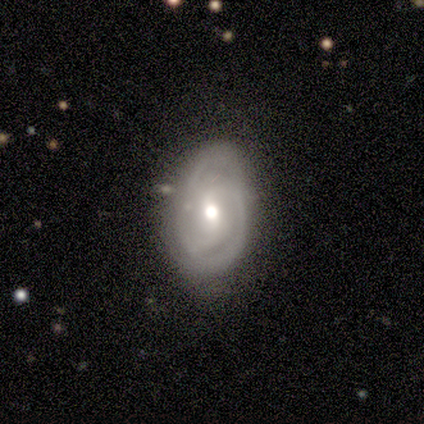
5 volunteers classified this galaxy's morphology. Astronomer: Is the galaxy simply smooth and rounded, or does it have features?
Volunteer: featured or disk — 100%.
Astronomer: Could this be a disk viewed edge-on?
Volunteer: no — 80%.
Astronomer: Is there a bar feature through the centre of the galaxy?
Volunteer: weak — 50%, tied with no at 50%.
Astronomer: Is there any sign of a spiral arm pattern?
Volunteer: yes — 75%.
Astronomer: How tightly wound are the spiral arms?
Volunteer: tight — 33%, tied with medium and loose at 33%.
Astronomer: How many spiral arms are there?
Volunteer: can't tell — 67%.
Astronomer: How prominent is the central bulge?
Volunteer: moderate — 50%.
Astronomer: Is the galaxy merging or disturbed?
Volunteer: none — 60%.